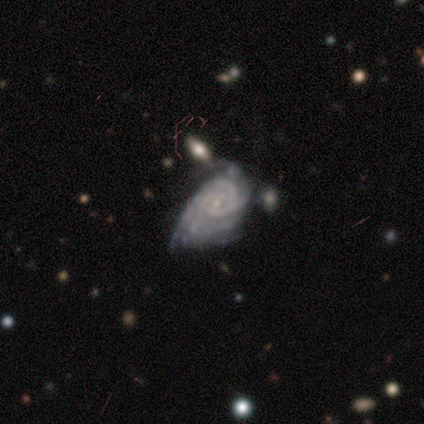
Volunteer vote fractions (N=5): featured or disk 80%, smooth 20%, star or artifact 0%. Down the decision tree: edge-on disk — no (100%); bar — weak (50%, tied with no); spiral arms — yes (100%); spiral arm count — can't tell (50%); spiral winding — tight (50%, tied with medium); bulge size — small (100%); merging — major disturbance (60%).